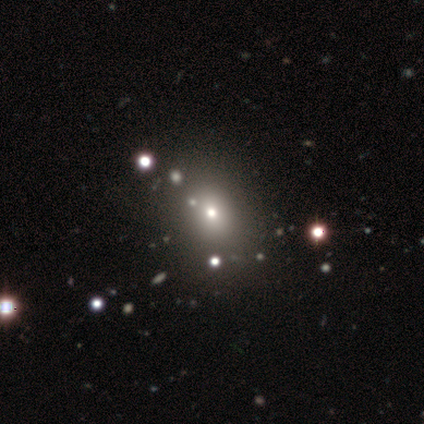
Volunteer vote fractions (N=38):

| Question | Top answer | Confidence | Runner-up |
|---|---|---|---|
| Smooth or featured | smooth | 50% | star or artifact (34%) |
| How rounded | round | 58% | in between (42%) |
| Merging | none | 48% | merger (16%) |